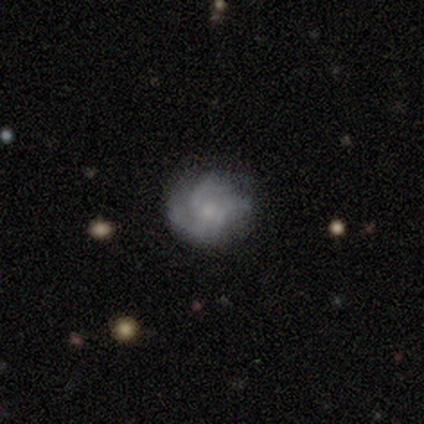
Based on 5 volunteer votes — Smooth or featured? featured or disk (80%)
Edge-on disk? no (100%)
Bar? no (75%)
Spiral arms? yes (75%)
Spiral winding? medium (100%)
Spiral arm count? 2 (33%, tied with 4 and can't tell)
Bulge size? moderate (50%, tied with small)
Merging? none (60%)